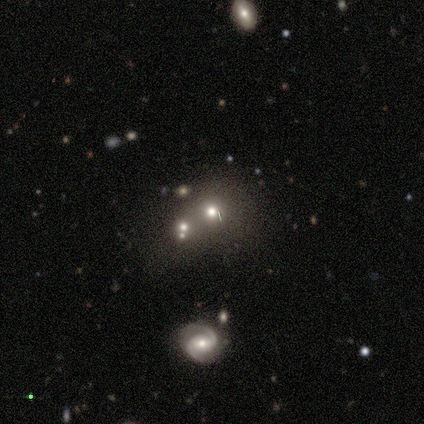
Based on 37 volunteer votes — This appears to be a smooth galaxy with no disk features (54%) that is round (80%). Merging: none (55%).